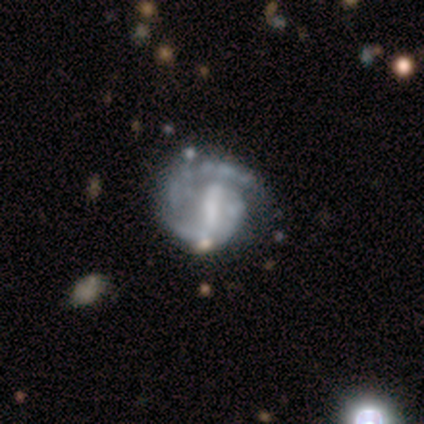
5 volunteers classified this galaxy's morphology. Q: Smooth or featured?
A: featured or disk (100%)
Q: Edge-on disk?
A: no (100%)
Q: Bar?
A: strong (60%); runner-up: weak (40%)
Q: Spiral arms?
A: yes (100%)
Q: Spiral winding?
A: tight (60%); runner-up: loose (40%)
Q: Spiral arm count?
A: 2 (80%); runner-up: 1 (20%)
Q: Bulge size?
A: large (40%); tied with: none (40%)
Q: Merging?
A: none (80%); runner-up: major disturbance (20%)